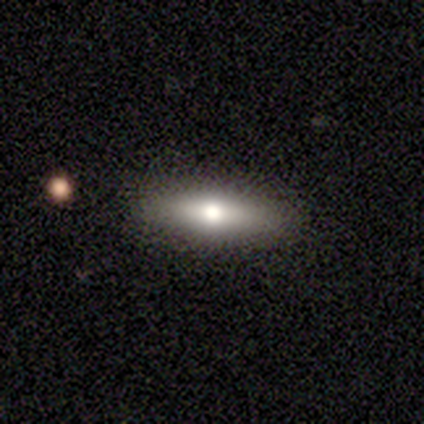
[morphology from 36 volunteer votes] type=smooth (61%); roundness=cigar-shaped (73%); merging=none (91%).